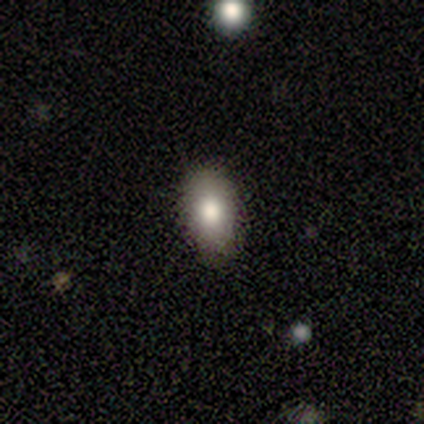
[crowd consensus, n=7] Volunteers were most divided on "smooth or featured": smooth: 71%, featured or disk: 14%, star or artifact: 14%. More confident: how rounded — in between (100%); merging — none (83%).